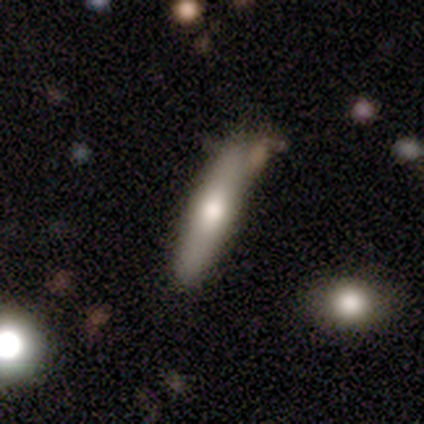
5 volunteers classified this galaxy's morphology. This appears to be a smooth galaxy with no disk features (60%) that is cigar-shaped (100%). Merging: none (60%).